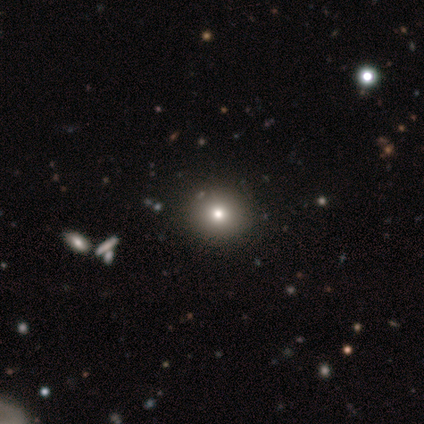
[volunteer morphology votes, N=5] This is clearly a star or artifact rather than a galaxy (80%).